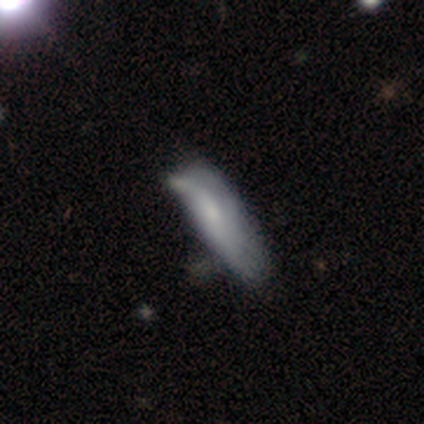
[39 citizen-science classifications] smooth 59%, featured or disk 36%, star or artifact 5%. Down the decision tree: how rounded — cigar-shaped (57%); merging — minor disturbance (27%).